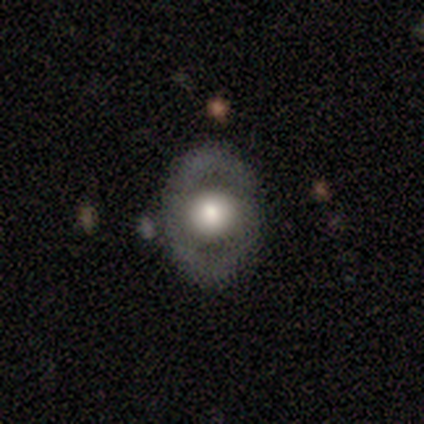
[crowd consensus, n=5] Morphology: type=featured or disk (60%); edge-on=no (100%); bar=no (100%); spiral arms=no (100%); bulge=large (67%); merging=none (60%).